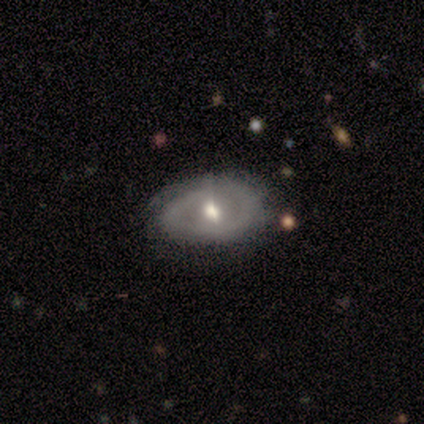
Morphology: type=featured or disk (80%); edge-on=no (100%); bar=no (50%); spiral arms=yes (100%); winding=tight (50%); arm count=2 (50%); bulge=moderate (75%); merging=none (80%).